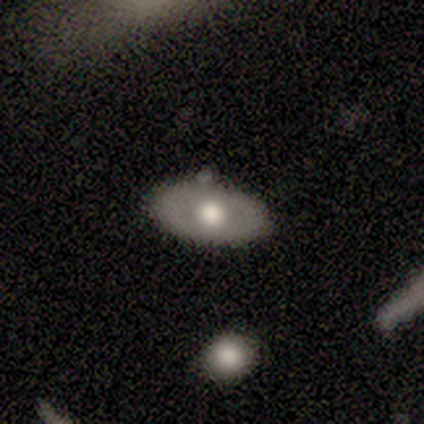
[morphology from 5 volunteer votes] smooth-or-featured: smooth: 80% | featured or disk: 20% | star or artifact: 0%
  how-rounded: in between: 100% | round: 0% | cigar-shaped: 0%
  merging: none: 40% (tied) | minor disturbance: 40% (tied) | merger: 20% | major disturbance: 0%